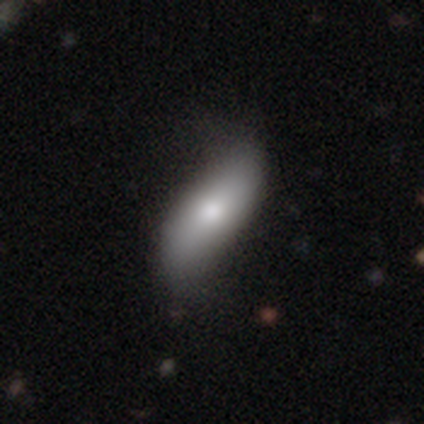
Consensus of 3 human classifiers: Smooth or featured: smooth — 100%
How rounded: in between — 67% (cigar-shaped — 33%)
Merging: minor disturbance — 67% (none — 33%)